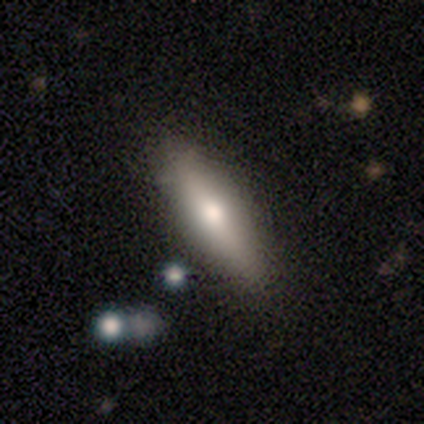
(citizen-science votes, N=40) Q: Smooth or featured?
A: smooth (62%); runner-up: featured or disk (38%)
Q: How rounded?
A: cigar-shaped (56%); runner-up: in between (44%)
Q: Merging?
A: none (78%); runner-up: minor disturbance (22%)